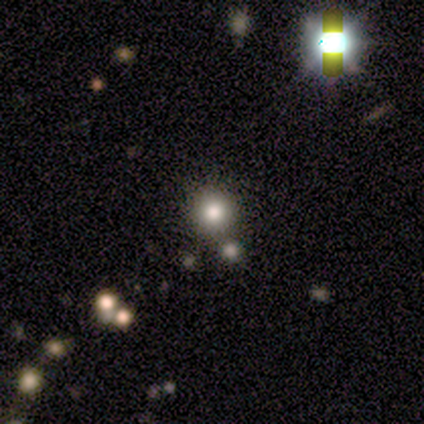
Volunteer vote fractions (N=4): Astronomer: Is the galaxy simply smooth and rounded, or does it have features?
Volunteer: smooth — 50%.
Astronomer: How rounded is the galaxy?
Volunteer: round — 100%.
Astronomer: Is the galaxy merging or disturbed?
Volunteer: none — 100%.